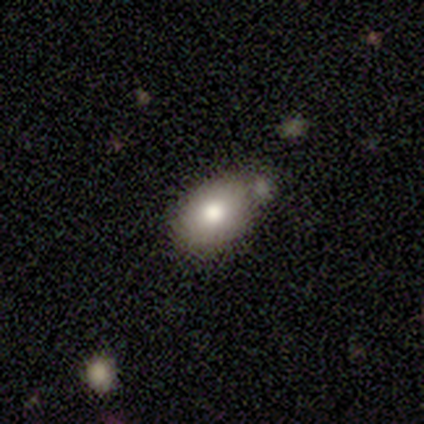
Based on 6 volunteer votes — smooth_or_featured: smooth (p=0.50) [alt: featured or disk p=0.33]
how_rounded: in between (p=1.00)
merging: none (p=0.60) [alt: minor disturbance p=0.20]